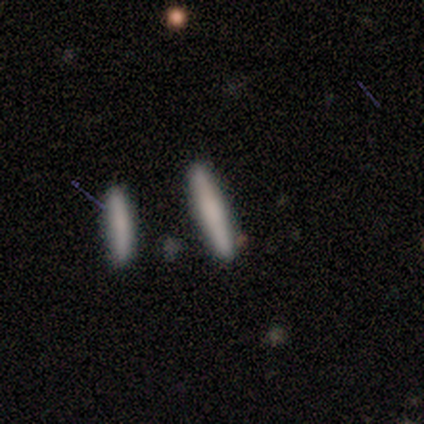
A smooth galaxy with no disk features (100%) that is cigar-shaped (100%).

Vote fractions:
- Smooth or featured? smooth: 100% / featured or disk: 0% / star or artifact: 0%
- How rounded? cigar-shaped: 100% / round: 0% / in between: 0%
- Merging? none: 100% / minor disturbance: 0% / major disturbance: 0% / merger: 0%